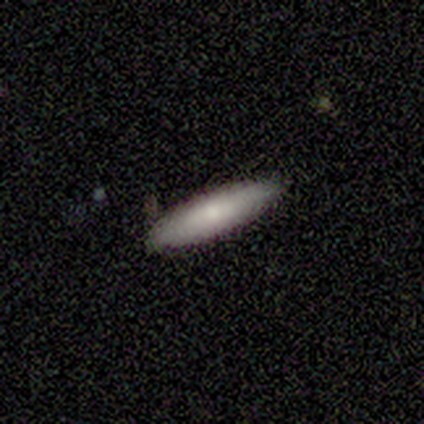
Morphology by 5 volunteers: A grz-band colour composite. It shows a smooth galaxy with no disk features (100%) that is in between round and cigar-shaped (60%). Merging: none (100%).